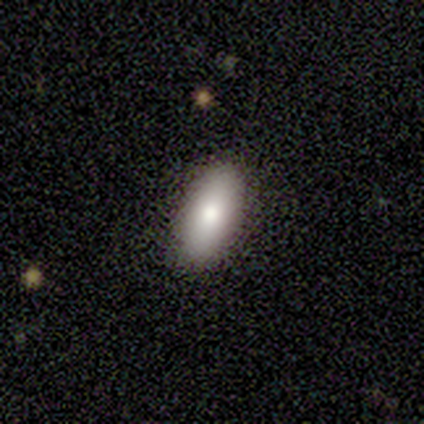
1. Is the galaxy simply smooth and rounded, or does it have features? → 100% smooth, 0% featured or disk, 0% star or artifact.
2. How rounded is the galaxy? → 100% in between, 0% round, 0% cigar-shaped.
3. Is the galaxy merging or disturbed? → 100% none, 0% minor disturbance, 0% major disturbance, 0% merger.